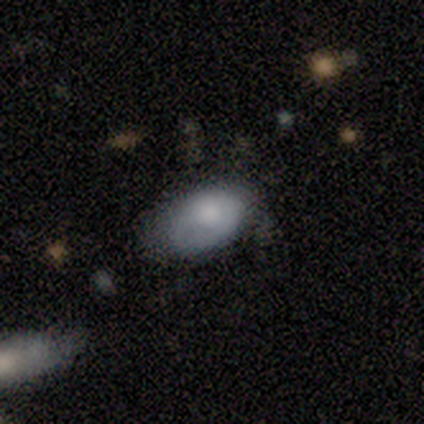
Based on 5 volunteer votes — smooth_or_featured: smooth (p=0.60) [alt: featured or disk p=0.20]
how_rounded: in between (p=0.67) [alt: round p=0.33]
merging: minor disturbance (p=0.50) [alt: none p=0.25]